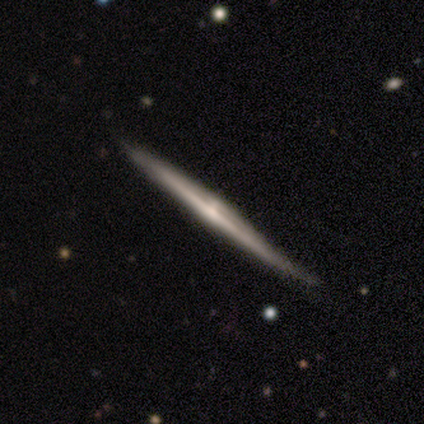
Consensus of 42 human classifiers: Smooth or featured? featured or disk (95%)
Edge-on disk? yes (98%)
Edge-on bulge? rounded (64%)
Merging? none (50%)